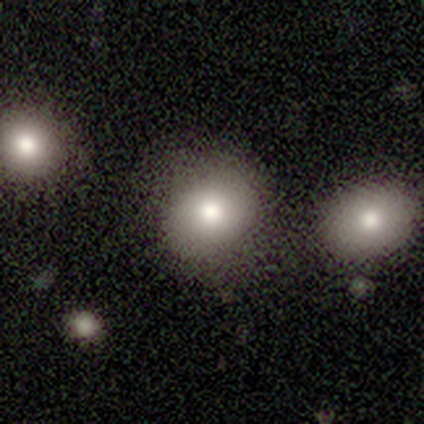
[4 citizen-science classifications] Morphology: type=smooth (100%); roundness=round (75%); merging=none (50%).